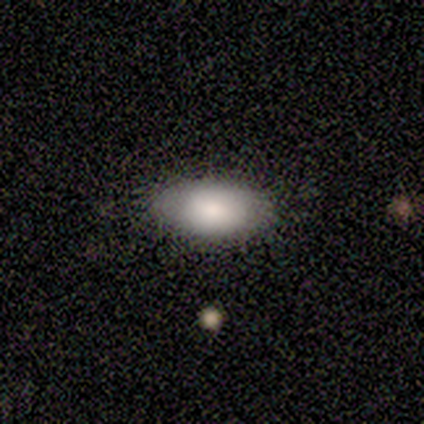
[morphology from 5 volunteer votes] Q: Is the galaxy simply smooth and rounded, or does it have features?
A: smooth — 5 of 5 (100%).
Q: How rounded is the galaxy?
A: in between — 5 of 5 (100%).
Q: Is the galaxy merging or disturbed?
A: none — 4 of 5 (80%).